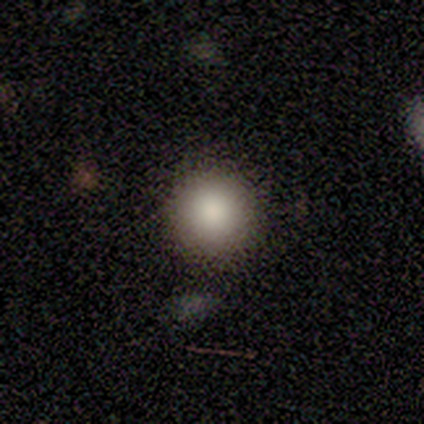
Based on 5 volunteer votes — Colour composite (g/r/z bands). It shows a smooth galaxy with no disk features (80%) that is round (100%). Merging: none (100%).